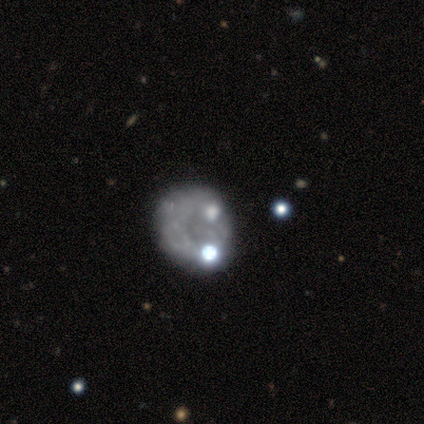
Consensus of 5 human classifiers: Smooth or featured: featured or disk — 60% (smooth — 40%)
Edge-on disk: no — 100%
Bar: no — 100%
Spiral arms: no — 100%
Bulge size: moderate — 33% (tied with small — 33%; none — 33%)
Merging: merger — 40% (none — 20%)